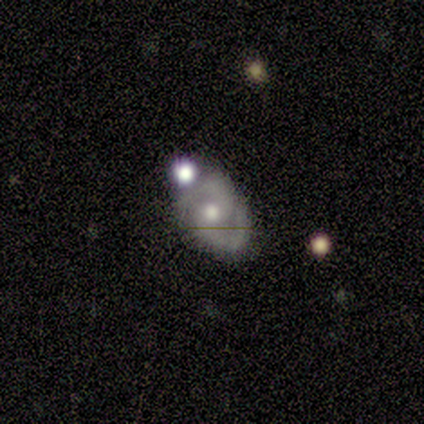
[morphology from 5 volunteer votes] Smooth or featured? featured or disk (100%)
Edge-on disk? no (100%)
Bar? no (80%)
Spiral arms? yes (100%)
Spiral winding? medium (100%)
Spiral arm count? 2 (100%)
Bulge size? moderate (40%, tied with small)
Merging? none (80%)